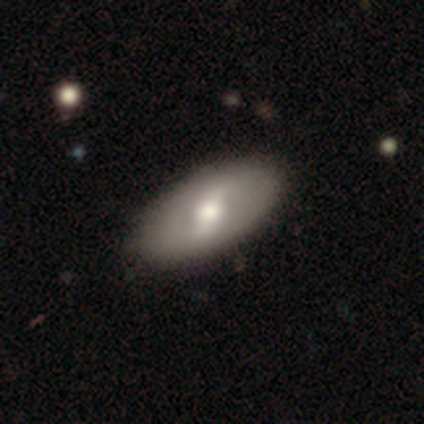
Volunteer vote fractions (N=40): Morphology: type=featured or disk (55%); edge-on=no (91%); bar=strong (50%); spiral arms=yes (65%); winding=tight (38%, tied with medium); arm count=2 (85%); bulge=moderate (80%); merging=none (95%).